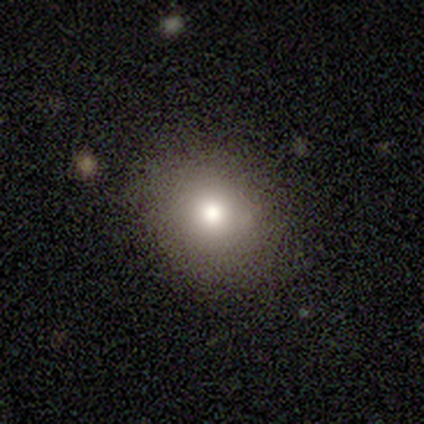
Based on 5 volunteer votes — Smooth or featured: smooth — 100%
How rounded: round — 80% (in between — 20%)
Merging: none — 80% (minor disturbance — 20%)